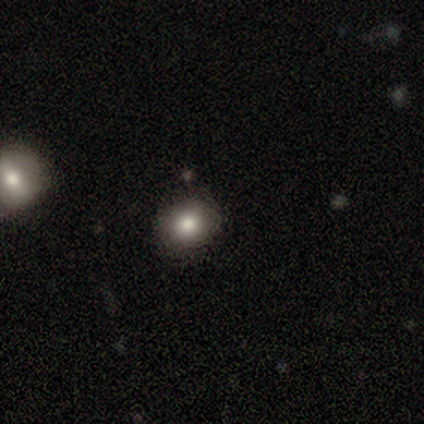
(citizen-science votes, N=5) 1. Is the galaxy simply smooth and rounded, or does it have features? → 60% smooth, 40% star or artifact, 0% featured or disk.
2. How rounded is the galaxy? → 100% round, 0% in between, 0% cigar-shaped.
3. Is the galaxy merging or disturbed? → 100% none, 0% minor disturbance, 0% major disturbance, 0% merger.